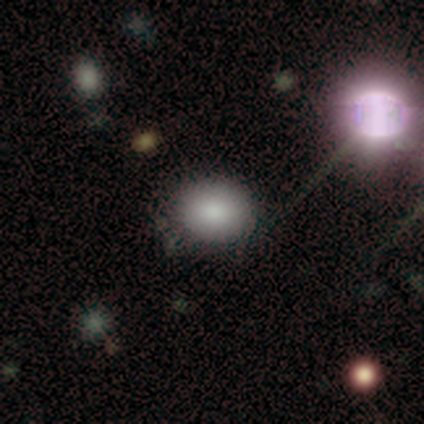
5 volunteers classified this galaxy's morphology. smooth-or-featured: smooth: 100% | featured or disk: 0% | star or artifact: 0%
  how-rounded: in between: 60% | round: 40% | cigar-shaped: 0%
  merging: none: 60% | minor disturbance: 40% | major disturbance: 0% | merger: 0%